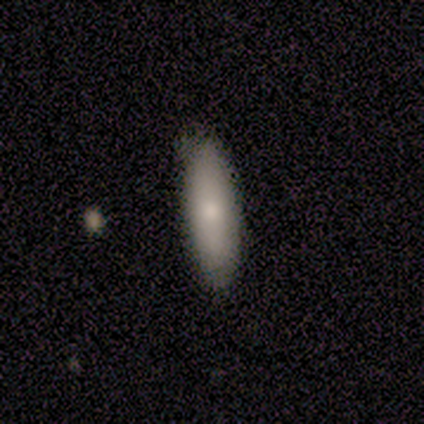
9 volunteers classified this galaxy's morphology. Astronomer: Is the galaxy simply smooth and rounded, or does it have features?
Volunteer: smooth — 67%.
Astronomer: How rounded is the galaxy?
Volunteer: in between — 67%.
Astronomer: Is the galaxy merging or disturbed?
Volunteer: none — 100%.